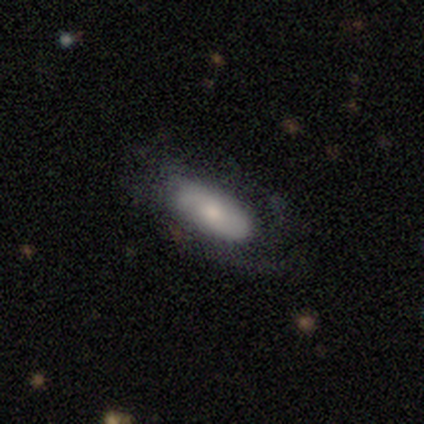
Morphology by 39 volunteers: A featured or disk galaxy (54%) with no bar (94%), tight (45%) spiral arms (69%) and a small central bulge (50%).

Vote fractions:
- Smooth or featured? featured or disk: 54% / smooth: 44% / star or artifact: 3%
- Edge-on disk? no: 76% / yes: 24%
- Bar? no: 94% / strong: 6% / weak: 0%
- Spiral arms? yes: 69% / no: 31%
- Spiral winding? tight: 45% / medium: 36% / loose: 18%
- Spiral arm count? can't tell: 55% / 2: 36% / 3: 9% / 1: 0% / 4: 0% / more than 4: 0%
- Bulge size? small: 50% / moderate: 38% / dominant: 6% / large: 6% / none: 0%
- Merging? none: 53% / minor disturbance: 24% / major disturbance: 24% / merger: 0%